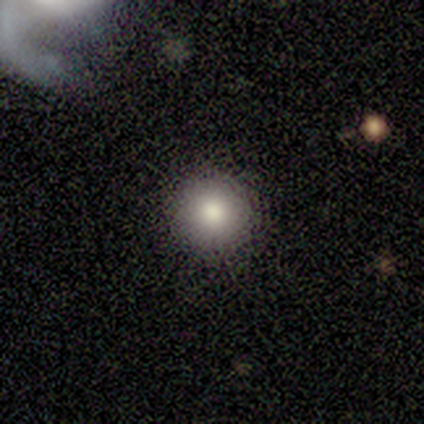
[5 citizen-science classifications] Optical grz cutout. It shows a featured or disk galaxy (60%) with no bar (100%), no spiral arms (100%) and a large central bulge (67%). Merging: none (100%).